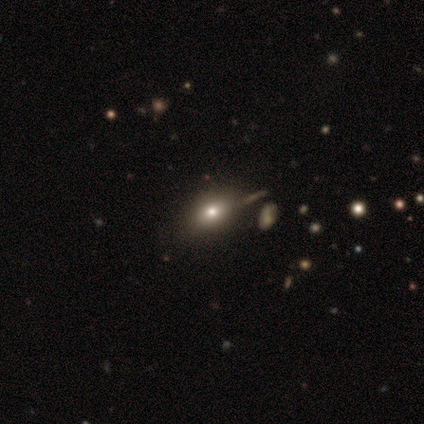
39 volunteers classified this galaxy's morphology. Smooth or featured? 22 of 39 (56%) said smooth. How rounded? 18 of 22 (82%) said in between. Merging? 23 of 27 (85%) said none.